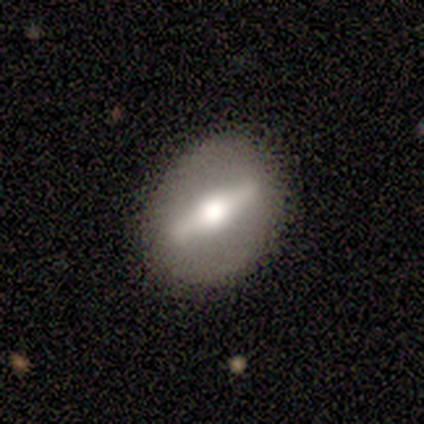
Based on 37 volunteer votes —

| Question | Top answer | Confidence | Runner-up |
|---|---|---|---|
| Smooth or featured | featured or disk | 73% | smooth (22%) |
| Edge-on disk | yes | 52% | no (48%) |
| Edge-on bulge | rounded | 79% | boxy (21%) |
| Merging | none | 86% | major disturbance (11%) |